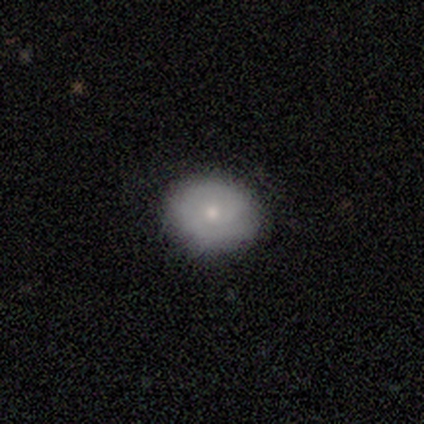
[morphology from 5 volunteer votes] Smooth or featured? 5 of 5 (100%) said smooth. How rounded? 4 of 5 (80%) said in between. Merging? 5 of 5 (100%) said none.